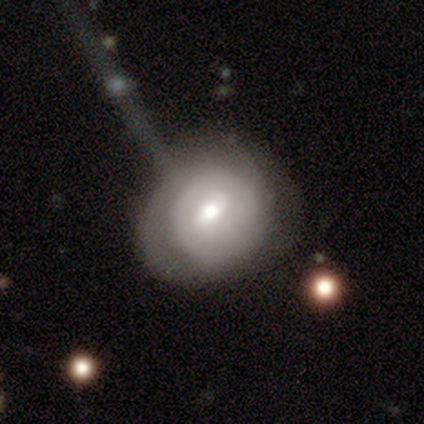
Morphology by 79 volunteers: type=featured or disk (62%); edge-on=no (98%); bar=weak (65%); spiral arms=yes (71%); winding=tight (68%); arm count=2 (47%); bulge=moderate (79%); merging=none (27%).